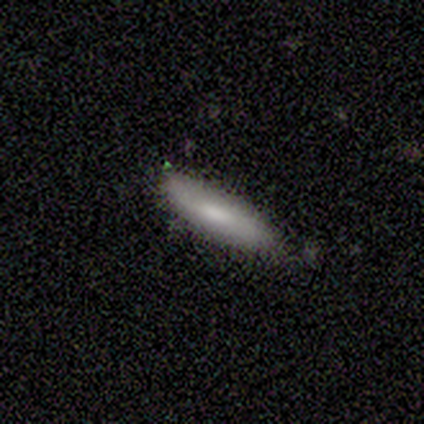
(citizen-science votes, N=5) Smooth or featured?
  - smooth: 100% *
  - featured or disk: 0%
  - star or artifact: 0%
How rounded?
  - in between: 80% *
  - cigar-shaped: 20%
  - round: 0%
Merging?
  - none: 80% *
  - major disturbance: 20%
  - minor disturbance: 0%
  - merger: 0%